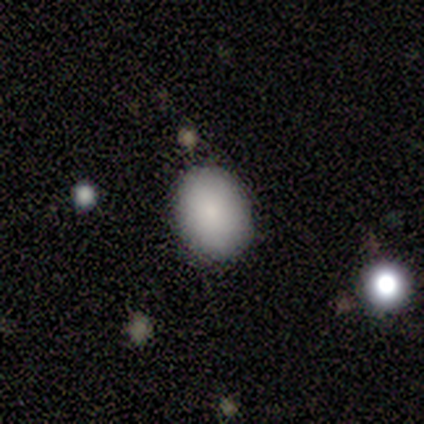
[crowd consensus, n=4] smooth-or-featured: smooth: 75% | star or artifact: 25% | featured or disk: 0%
  how-rounded: in between: 100% | round: 0% | cigar-shaped: 0%
  merging: none: 100% | minor disturbance: 0% | major disturbance: 0% | merger: 0%